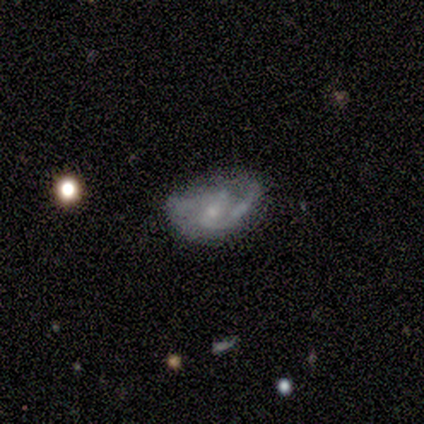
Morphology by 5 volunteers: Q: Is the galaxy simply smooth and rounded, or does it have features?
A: featured or disk — 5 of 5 (100%).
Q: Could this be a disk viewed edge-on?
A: no — 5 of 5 (100%).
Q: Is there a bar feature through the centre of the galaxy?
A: weak — 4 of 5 (80%).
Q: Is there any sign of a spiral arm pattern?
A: yes — 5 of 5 (100%).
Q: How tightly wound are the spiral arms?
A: medium — 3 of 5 (60%).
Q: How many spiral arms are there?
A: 2 — 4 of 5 (80%).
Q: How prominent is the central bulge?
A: small — 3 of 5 (60%).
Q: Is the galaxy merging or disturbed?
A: none — 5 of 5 (100%).